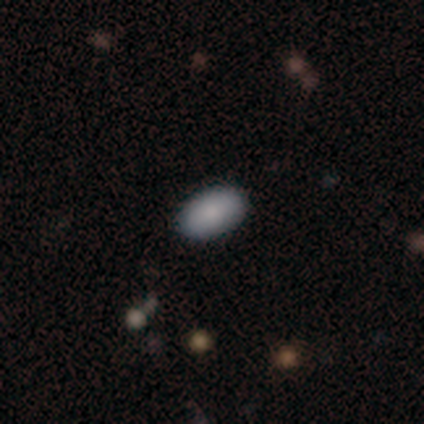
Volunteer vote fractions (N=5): Overall: smooth (100%). How rounded: in between (100%). Merging: none (100%).